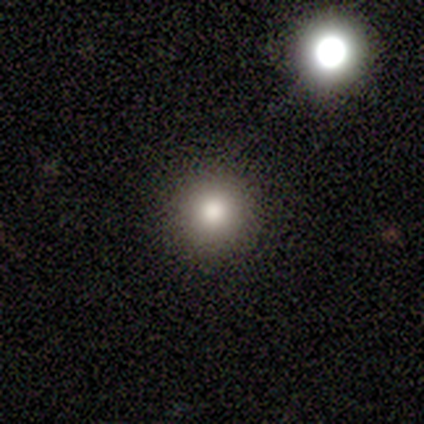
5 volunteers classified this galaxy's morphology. Overall: smooth (80%). How rounded: round (100%). Merging: none (80%).